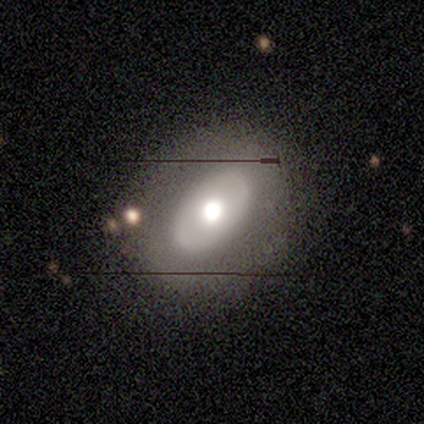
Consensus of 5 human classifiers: Smooth or featured? featured or disk (100%)
Edge-on disk? no (100%)
Bar? no (60%)
Spiral arms? no (100%)
Bulge size? moderate (40%)
Merging? none (80%)